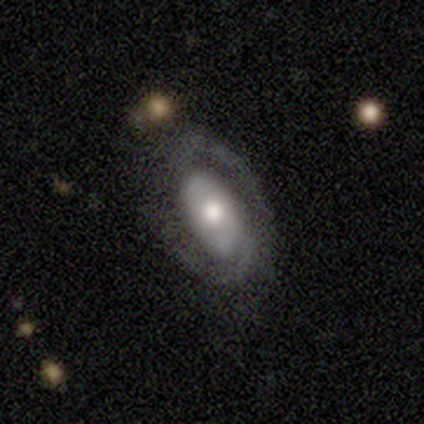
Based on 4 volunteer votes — This appears to be a featured or disk galaxy (75%) with no bar (67%), 2 (100%) medium (100%) spiral arms (67%) and a moderate central bulge (100%). Merging: none (100%).